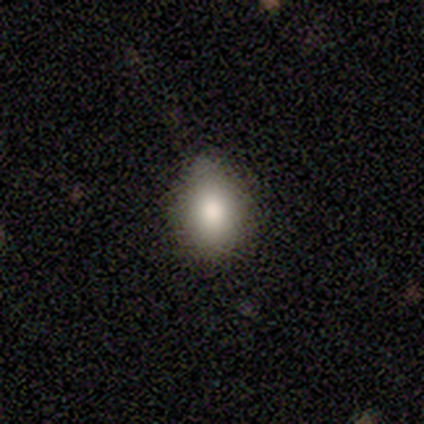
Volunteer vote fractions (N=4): smooth_or_featured: smooth (p=0.75) [alt: star or artifact p=0.25]
how_rounded: in between (p=0.67) [alt: round p=0.33]
merging: none (p=1.00)